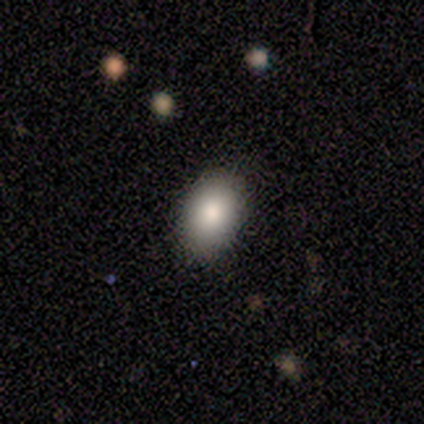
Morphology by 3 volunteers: Overall: smooth (67%; featured or disk 33%). How rounded: round (50%, tied with in between). Merging: none (67%; major disturbance 33%).